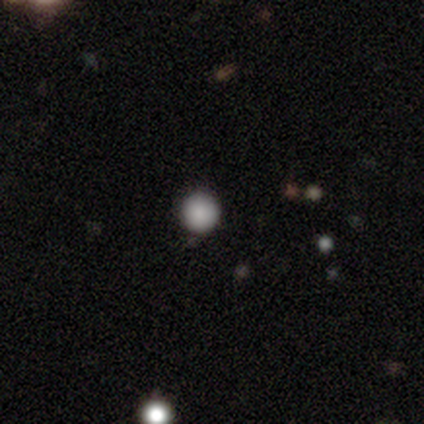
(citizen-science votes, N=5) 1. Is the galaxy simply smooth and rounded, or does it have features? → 100% smooth, 0% featured or disk, 0% star or artifact.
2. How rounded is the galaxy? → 100% round, 0% in between, 0% cigar-shaped.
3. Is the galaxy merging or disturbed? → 100% none, 0% minor disturbance, 0% major disturbance, 0% merger.